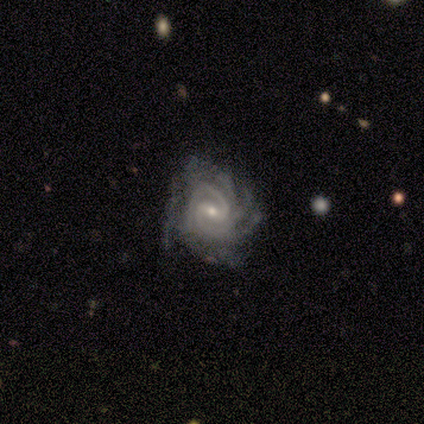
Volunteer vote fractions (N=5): This appears to be a featured or disk galaxy (100%) with a weak bar (80%), 2 (40%, tied with more than 4) tight (80%) spiral arms (100%) and a small central bulge (60%). Merging: minor disturbance (60%).